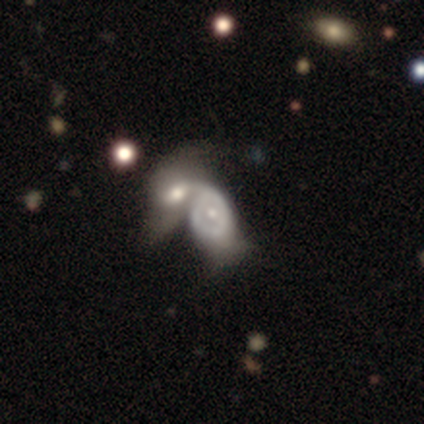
This is likely a featured or disk galaxy (74%). It is clearly not viewed edge-on (97%). Bar: likely no (75%). Spiral arm pattern: likely no (64%). Central bulge: likely moderate (61%). Merging: clearly merger (92%).